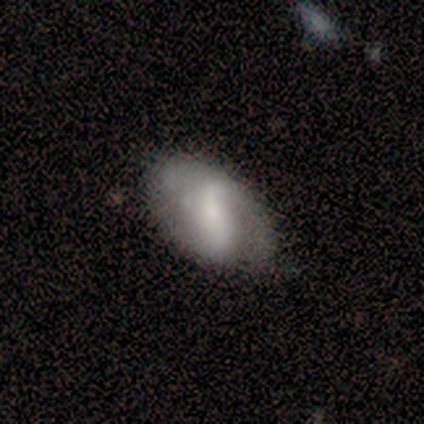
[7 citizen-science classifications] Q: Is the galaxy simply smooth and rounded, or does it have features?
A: featured or disk — 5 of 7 (71%).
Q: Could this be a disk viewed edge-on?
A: no — 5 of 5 (100%).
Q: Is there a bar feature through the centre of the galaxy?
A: strong — 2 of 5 (40%, tied with weak).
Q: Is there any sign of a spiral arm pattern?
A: no — 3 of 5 (60%).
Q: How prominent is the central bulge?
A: small — 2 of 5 (40%).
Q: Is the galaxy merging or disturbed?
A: none — 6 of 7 (86%).